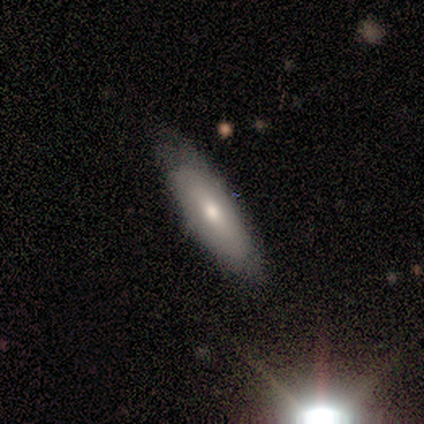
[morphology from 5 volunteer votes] featured or disk 60%, smooth 40%, star or artifact 0%. Down the decision tree: edge-on disk — yes (67%); edge-on bulge — rounded (100%); merging — none (100%).